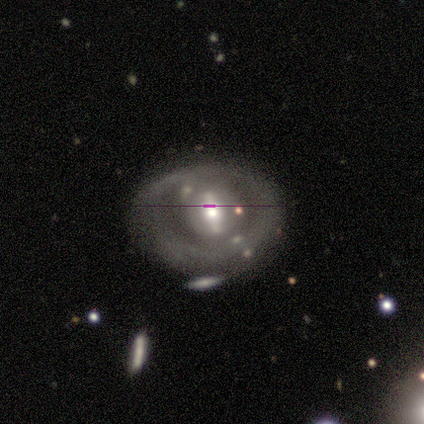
Smooth or featured: featured or disk — 77% (smooth — 15%)
Edge-on disk: no — 93% (yes — 7%)
Bar: strong — 54% (no — 29%)
Spiral arms: no — 93% (yes — 7%)
Bulge size: moderate — 75% (large — 18%)
Merging: none — 64% (minor disturbance — 19%)